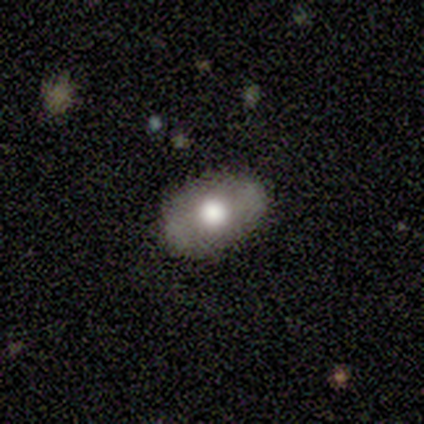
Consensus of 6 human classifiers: This is likely a featured or disk galaxy (67%). It is possibly viewed edge-on (50%, tied with no). Edge-on bulge: possibly none (50%, tied with rounded). Merging: likely none (67%).